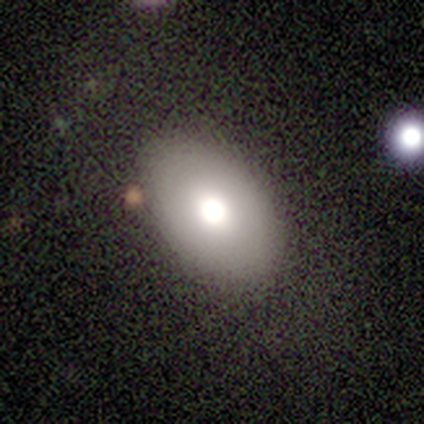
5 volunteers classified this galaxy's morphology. Q: Smooth or featured?
A: smooth (80%); runner-up: featured or disk (20%)
Q: How rounded?
A: in between (75%); runner-up: cigar-shaped (25%)
Q: Merging?
A: none (100%)